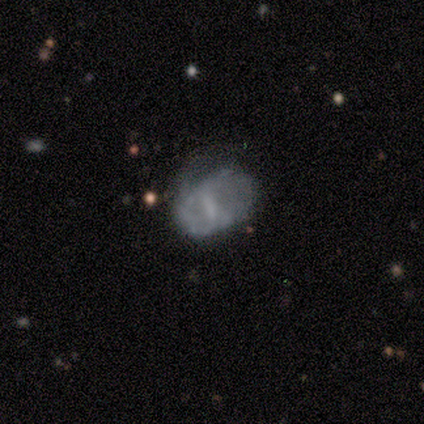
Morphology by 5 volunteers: Smooth or featured: featured or disk — 60% (smooth — 40%)
Edge-on disk: no — 100%
Bar: strong — 33% (tied with weak — 33%; no — 33%)
Spiral arms: yes — 67% (no — 33%)
Spiral winding: medium — 50% (tied with loose — 50%)
Spiral arm count: 2 — 50% (tied with can't tell — 50%)
Bulge size: none — 100%
Merging: minor disturbance — 40% (none — 20%)